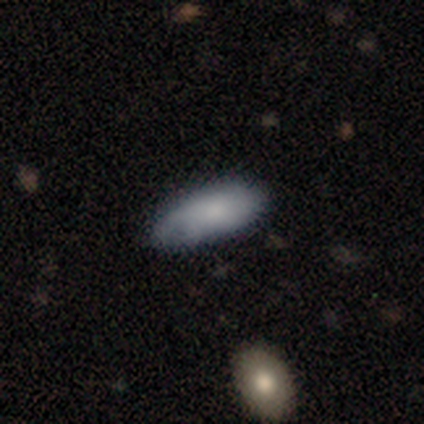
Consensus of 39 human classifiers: smooth-or-featured: smooth: 56% | featured or disk: 41% | star or artifact: 3%
  how-rounded: in between: 95% | cigar-shaped: 5% | round: 0%
  merging: none: 55% | minor disturbance: 26% | major disturbance: 5% | merger: 3%